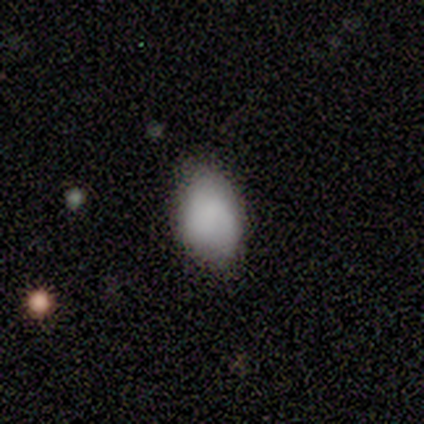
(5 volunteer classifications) This is clearly a smooth galaxy (100%). How rounded: clearly in between (100%). Merging: likely none (60%).